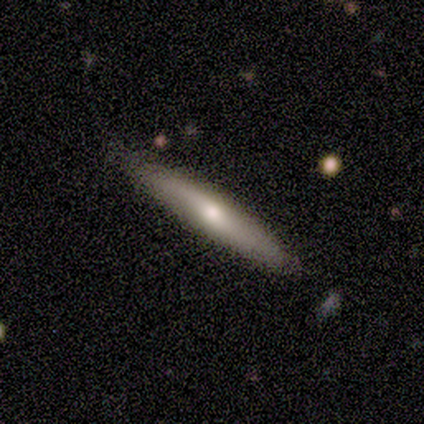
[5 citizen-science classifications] Volunteers were most divided on "smooth or featured": smooth: 60%, featured or disk: 40%, star or artifact: 0%. More confident: how rounded — cigar-shaped (100%); merging — none (100%).